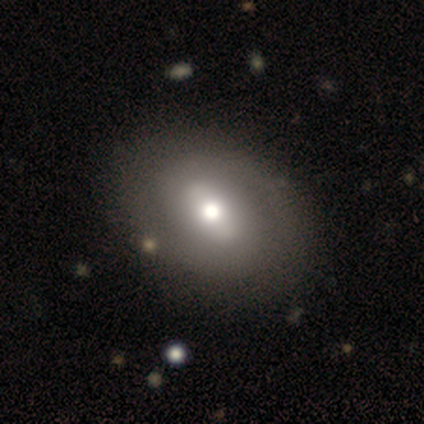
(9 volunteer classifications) This is likely a featured or disk galaxy (67%). It is clearly not viewed edge-on (83%). Bar: marginally weak (40%, tied with no). Spiral arm pattern: likely yes (60%). Spiral arm count: clearly 2 (100%). Spiral winding: likely medium (67%). Central bulge: marginally large (40%, tied with moderate). Merging: clearly none (100%).